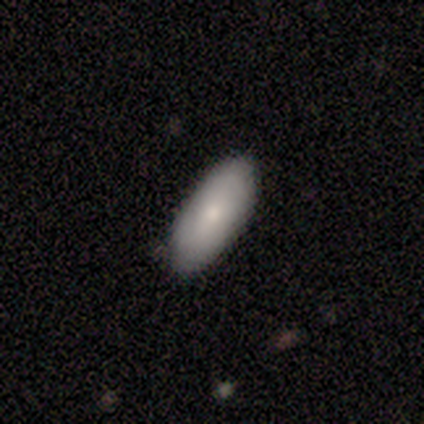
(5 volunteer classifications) This appears to be a smooth galaxy with no disk features (60%) that is in between round and cigar-shaped (67%). Merging: none (100%).